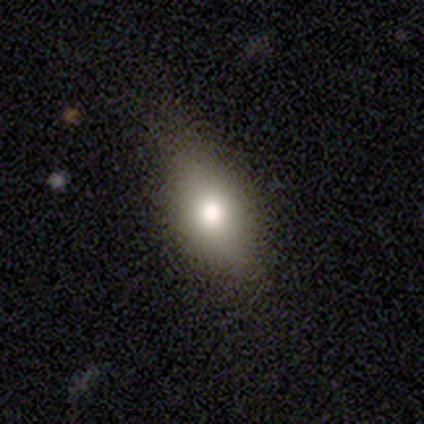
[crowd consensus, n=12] Smooth or featured: smooth — 42% (featured or disk — 33%)
How rounded: in between — 80% (round — 20%)
Merging: none — 89% (minor disturbance — 11%)